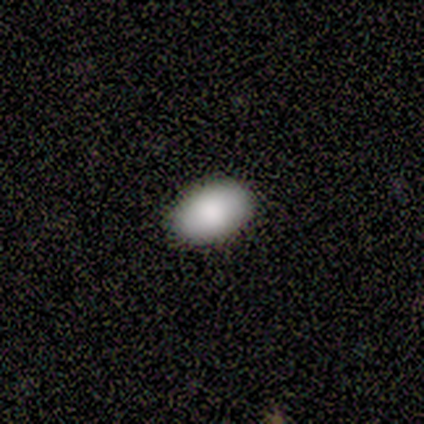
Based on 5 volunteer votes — This is clearly a smooth galaxy (100%). How rounded: likely in between (60%). Merging: clearly none (80%).